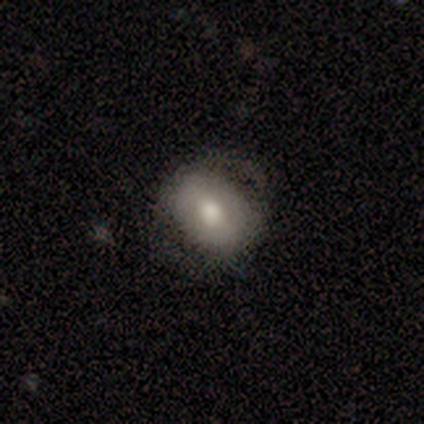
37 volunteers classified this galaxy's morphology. Smooth or featured: smooth — 70% (featured or disk — 22%)
How rounded: round — 54% (in between — 46%)
Merging: none — 65% (minor disturbance — 26%)